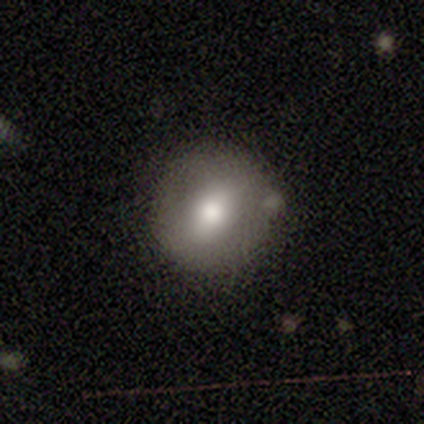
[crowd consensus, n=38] This is likely a smooth galaxy (61%). How rounded: clearly round (91%). Merging: likely none (72%).